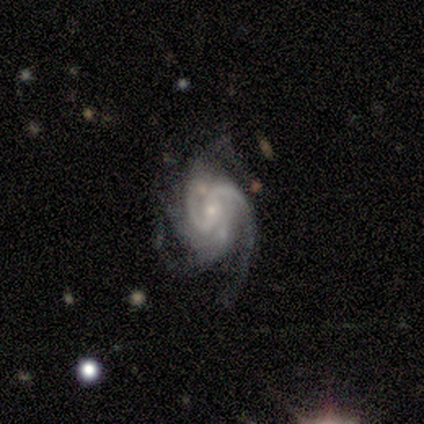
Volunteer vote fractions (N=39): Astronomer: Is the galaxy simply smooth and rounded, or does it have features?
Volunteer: featured or disk — 92%.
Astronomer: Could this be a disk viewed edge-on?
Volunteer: no — 100%.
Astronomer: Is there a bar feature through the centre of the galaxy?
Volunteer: no — 50% (runner-up: weak, 31%).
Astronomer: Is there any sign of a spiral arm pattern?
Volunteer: yes — 100%.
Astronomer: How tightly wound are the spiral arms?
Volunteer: medium — 44% (runner-up: tight, 33%).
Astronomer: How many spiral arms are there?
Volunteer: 2 — 39%, tied with 3 at 39%.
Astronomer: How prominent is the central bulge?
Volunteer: small — 72%.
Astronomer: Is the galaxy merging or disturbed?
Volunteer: none — 57%.